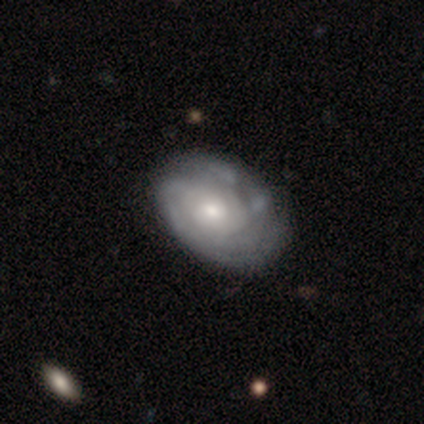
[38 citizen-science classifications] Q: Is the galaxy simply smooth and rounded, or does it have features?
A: featured or disk — 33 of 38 (87%).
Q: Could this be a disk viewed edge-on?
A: no — 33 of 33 (100%).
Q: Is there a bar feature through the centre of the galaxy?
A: no — 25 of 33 (76%).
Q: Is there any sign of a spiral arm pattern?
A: yes — 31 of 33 (94%).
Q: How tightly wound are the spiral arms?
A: tight — 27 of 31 (87%).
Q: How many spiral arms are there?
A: can't tell — 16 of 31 (52%).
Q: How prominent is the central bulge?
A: moderate — 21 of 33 (64%).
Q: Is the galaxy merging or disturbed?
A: none — 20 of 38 (53%).